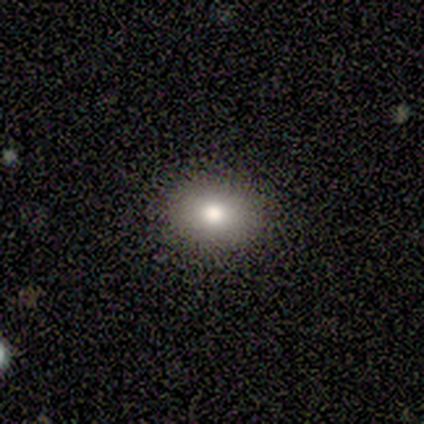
smooth-or-featured: smooth: 60% | featured or disk: 20% | star or artifact: 20%
  how-rounded: in between: 100% | round: 0% | cigar-shaped: 0%
  merging: none: 100% | minor disturbance: 0% | major disturbance: 0% | merger: 0%